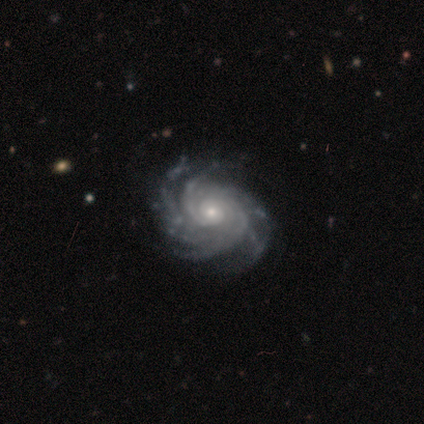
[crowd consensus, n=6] Morphology: type=featured or disk (100%); edge-on=no (100%); bar=no (83%); spiral arms=yes (100%); winding=tight (100%); arm count=more than 4 (50%); bulge=small (83%); merging=none (67%).